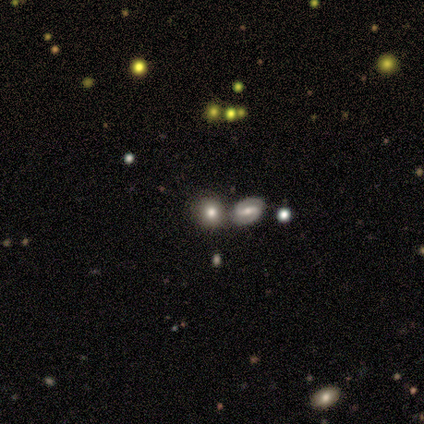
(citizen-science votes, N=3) Smooth or featured? featured or disk (67%)
Edge-on disk? no (100%)
Bar? weak (50%, tied with no)
Spiral arms? yes (50%, tied with no)
Spiral winding? loose (100%)
Spiral arm count? 2 (100%)
Bulge size? large (50%, tied with small)
Merging? none (67%)